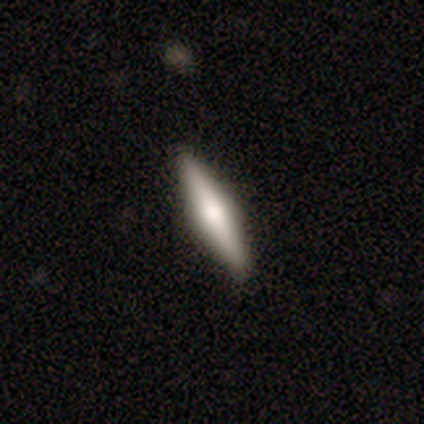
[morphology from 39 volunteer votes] smooth 49% (tied), featured or disk 49% (tied), star or artifact 3%. Down the decision tree: how rounded — cigar-shaped (79%); merging — none (95%).